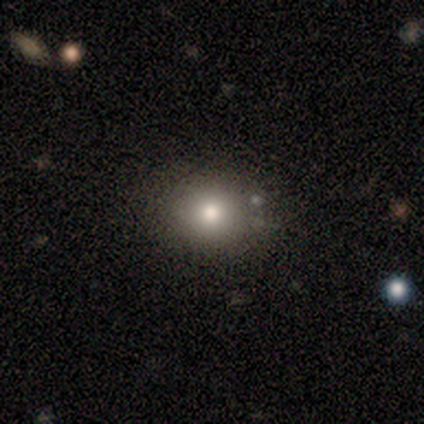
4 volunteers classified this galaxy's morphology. Smooth or featured?
  - smooth: 75% *
  - featured or disk: 25%
  - star or artifact: 0%
How rounded?
  - round: 67% *
  - in between: 33%
  - cigar-shaped: 0%
Merging?
  - none: 50% *
  - minor disturbance: 25%
  - major disturbance: 25%
  - merger: 0%